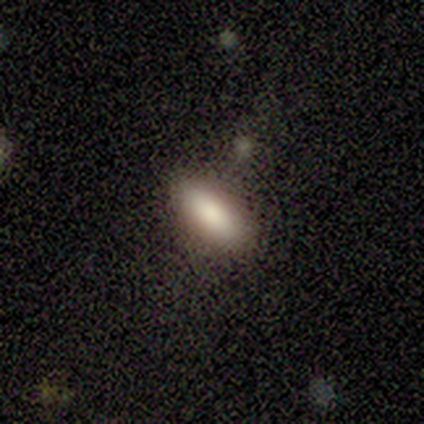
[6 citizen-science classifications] Q: Smooth or featured?
A: smooth (83%); runner-up: star or artifact (17%)
Q: How rounded?
A: in between (80%); runner-up: round (20%)
Q: Merging?
A: none (80%); runner-up: merger (20%)